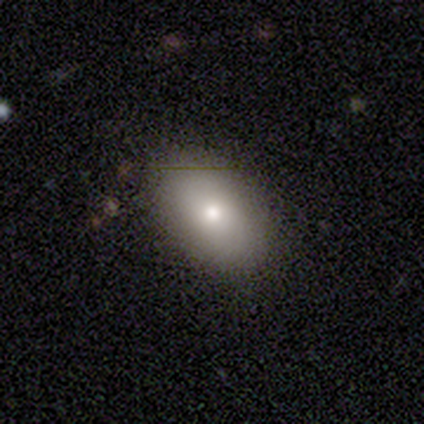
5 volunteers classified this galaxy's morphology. Q: Smooth or featured?
A: smooth (100%)
Q: How rounded?
A: in between (80%); runner-up: round (20%)
Q: Merging?
A: none (100%)